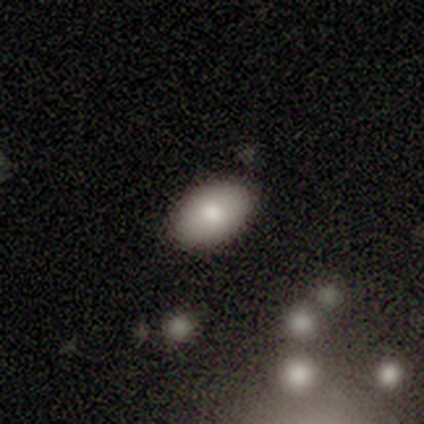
Volunteers were most divided on "how rounded": in between: 80%, round: 20%, cigar-shaped: 0%. More confident: smooth or featured — smooth (100%); merging — none (100%).